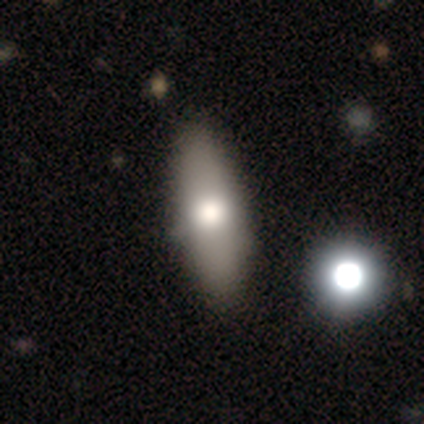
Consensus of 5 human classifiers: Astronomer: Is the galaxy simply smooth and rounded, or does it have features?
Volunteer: featured or disk — 60%.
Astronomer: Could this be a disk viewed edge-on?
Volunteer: no — 67%.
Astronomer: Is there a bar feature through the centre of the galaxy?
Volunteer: no — 100%.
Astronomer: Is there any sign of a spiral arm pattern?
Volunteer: no — 100%.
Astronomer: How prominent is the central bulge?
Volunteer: moderate — 100%.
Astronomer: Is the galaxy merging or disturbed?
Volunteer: none — 75%.